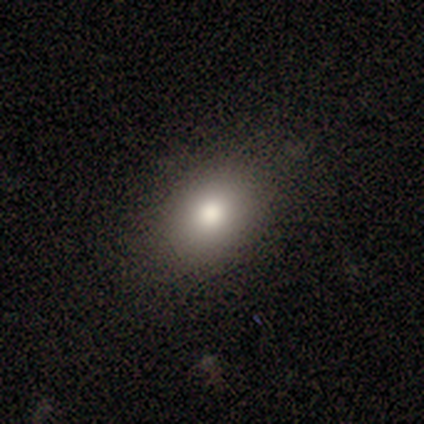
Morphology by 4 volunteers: type=smooth (75%); roundness=in between (67%); merging=none (67%).